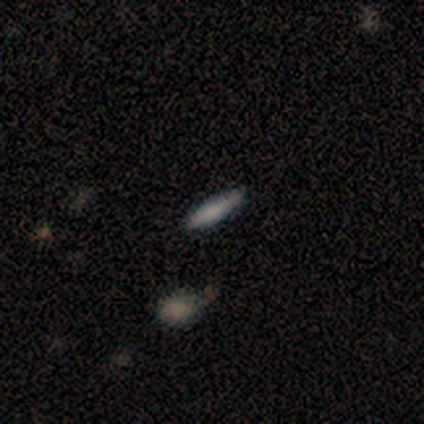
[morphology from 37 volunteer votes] This appears to be a smooth galaxy with no disk features (73%) that is cigar-shaped (70%). Merging: none (83%).